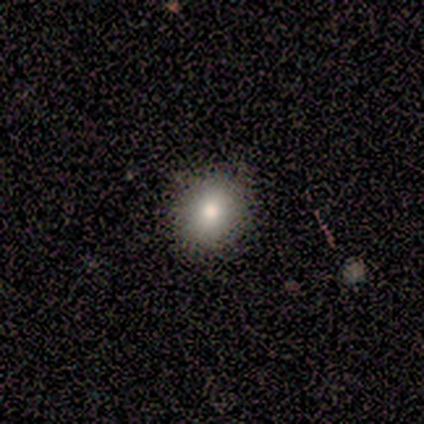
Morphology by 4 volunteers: Volunteers were most divided on "how rounded": round: 75%, in between: 25%, cigar-shaped: 0%. More confident: smooth or featured — smooth (100%); merging — none (75%).